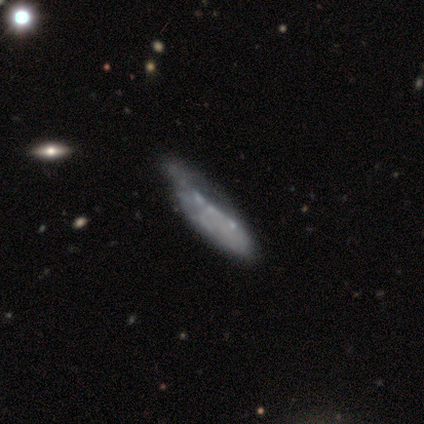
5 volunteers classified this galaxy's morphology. Smooth or featured?
  - featured or disk: 60% *
  - smooth: 20%
  - star or artifact: 20%
Edge-on disk?
  - no: 67% *
  - yes: 33%
Bar?
  - no: 100% *
  - strong: 0%
  - weak: 0%
Spiral arms?
  - no: 100% *
  - yes: 0%
Bulge size?
  - none: 100% *
  - dominant: 0%
  - large: 0%
  - moderate: 0%
  - small: 0%
Merging?
  - none: 50% *
  - minor disturbance: 25%
  - major disturbance: 25%
  - merger: 0%